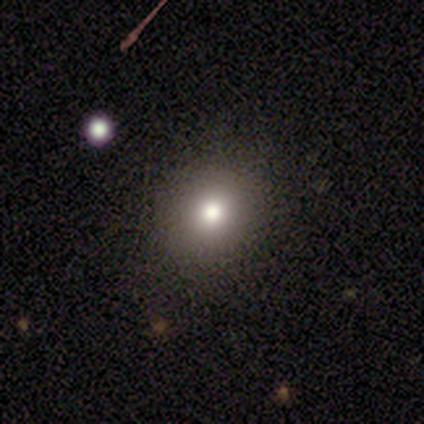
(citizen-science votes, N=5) Overall: smooth (100%). How rounded: round (100%). Merging: none (100%).